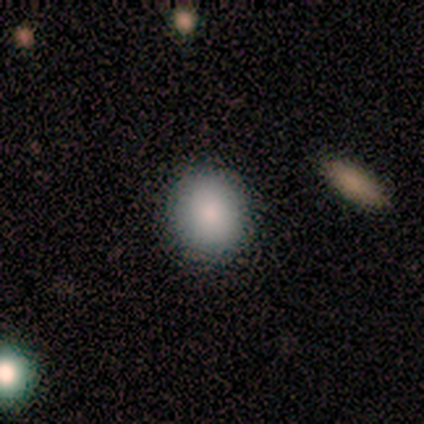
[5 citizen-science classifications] Smooth or featured: smooth — 100%
How rounded: round — 80% (in between — 20%)
Merging: none — 80% (minor disturbance — 20%)